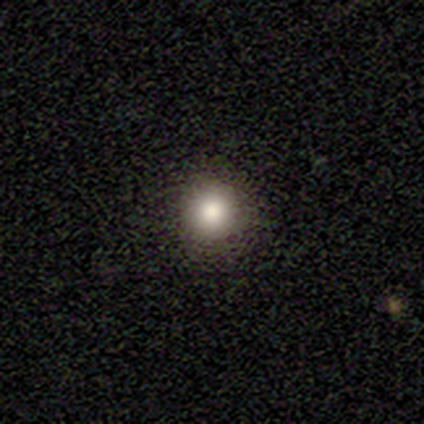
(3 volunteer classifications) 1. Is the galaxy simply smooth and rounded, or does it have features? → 100% smooth, 0% featured or disk, 0% star or artifact.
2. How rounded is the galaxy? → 100% round, 0% in between, 0% cigar-shaped.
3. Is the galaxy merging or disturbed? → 67% none, 33% minor disturbance, 0% major disturbance, 0% merger.